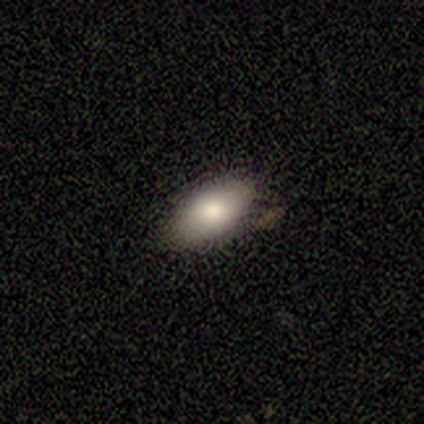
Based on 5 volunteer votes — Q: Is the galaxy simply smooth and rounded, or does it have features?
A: smooth — 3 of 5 (60%).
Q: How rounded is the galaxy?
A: in between — 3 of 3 (100%).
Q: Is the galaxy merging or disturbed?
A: minor disturbance — 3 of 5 (60%).